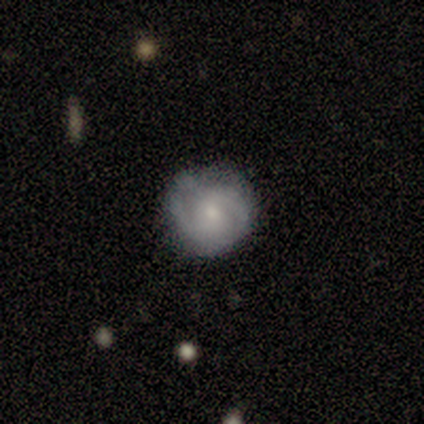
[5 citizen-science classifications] Smooth or featured? 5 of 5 (100%) said featured or disk. Edge-on disk? 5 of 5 (100%) said no. Bar? 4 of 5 (80%) said no. Spiral arms? 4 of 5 (80%) said yes. Spiral winding? 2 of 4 (50%, tied with medium) said tight. Spiral arm count? 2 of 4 (50%) said 2. Bulge size? 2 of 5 (40%) said small. Merging? 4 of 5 (80%) said none.